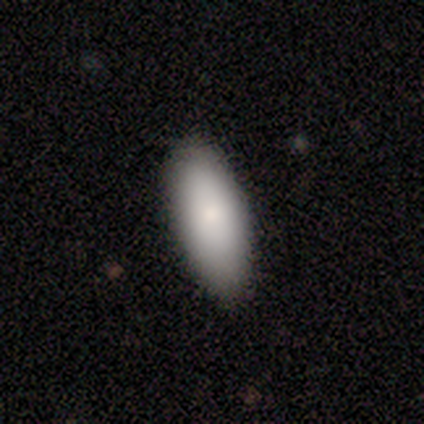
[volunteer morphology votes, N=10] smooth_or_featured: smooth (p=0.70) [alt: featured or disk p=0.30]
how_rounded: in between (p=1.00)
merging: none (p=0.90) [alt: minor disturbance p=0.10]